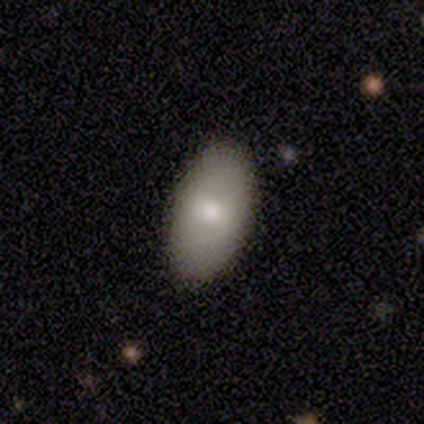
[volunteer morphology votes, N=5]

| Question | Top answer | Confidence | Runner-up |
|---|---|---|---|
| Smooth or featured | smooth | 100% | — |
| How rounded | in between | 100% | — |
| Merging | none | 80% | minor disturbance (20%) |